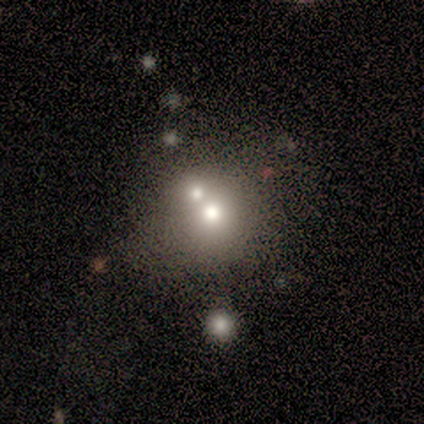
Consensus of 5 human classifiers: Morphology: type=smooth (60%); roundness=round (67%); merging=merger (100%).